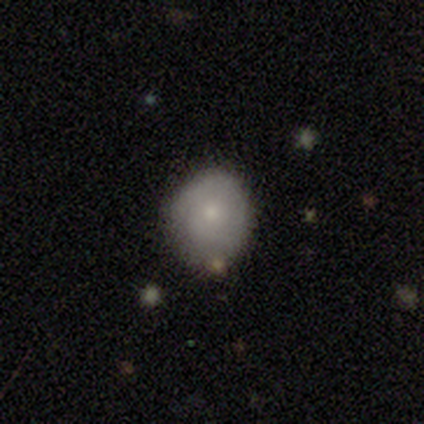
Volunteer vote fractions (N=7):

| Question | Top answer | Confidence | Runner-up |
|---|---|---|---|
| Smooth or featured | smooth | 71% | featured or disk (29%) |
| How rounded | round | 100% | — |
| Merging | none | 100% | — |